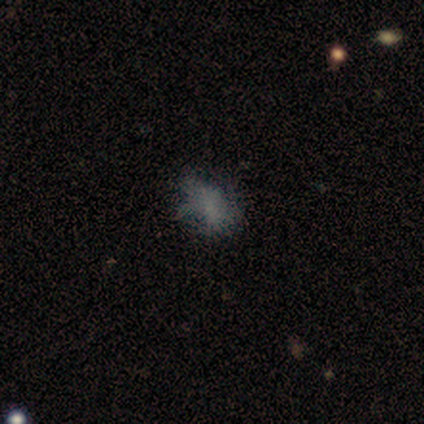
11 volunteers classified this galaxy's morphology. This is possibly a smooth galaxy (45%). How rounded: clearly in between (80%). Merging: possibly none (56%).